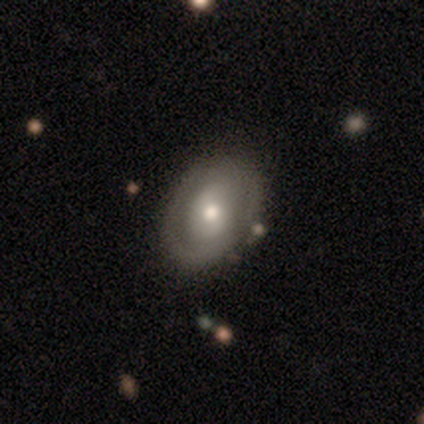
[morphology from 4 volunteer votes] Smooth or featured? featured or disk (75%)
Edge-on disk? no (100%)
Bar? no (67%)
Spiral arms? yes (67%)
Spiral winding? tight (50%, tied with loose)
Spiral arm count? 2 (50%, tied with can't tell)
Bulge size? moderate (100%)
Merging? none (100%)